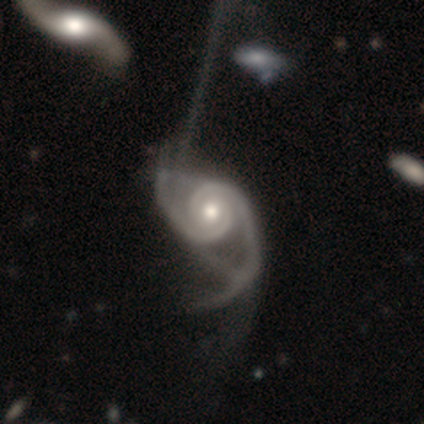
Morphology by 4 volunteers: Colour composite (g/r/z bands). It shows a featured or disk galaxy (75%) with a strong bar (33%, tied with weak and no), 2 (67%) medium (67%) spiral arms (100%) and a moderate central bulge (67%). Merging: none (33%, tied with minor disturbance and major disturbance).